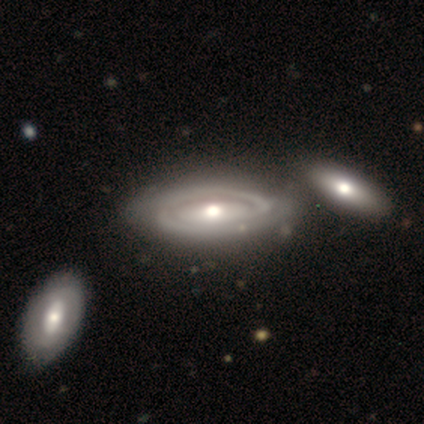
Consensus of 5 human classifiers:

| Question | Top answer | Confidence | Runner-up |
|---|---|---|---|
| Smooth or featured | featured or disk | 100% | — |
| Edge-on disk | no | 100% | — |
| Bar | no | 80% | weak (20%) |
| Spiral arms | yes | 80% | no (20%) |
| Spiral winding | tight | 100% | — |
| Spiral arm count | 2 | 50% | tied: can't tell (50%) |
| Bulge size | moderate | 80% | large (20%) |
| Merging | none | 60% | merger (40%) |